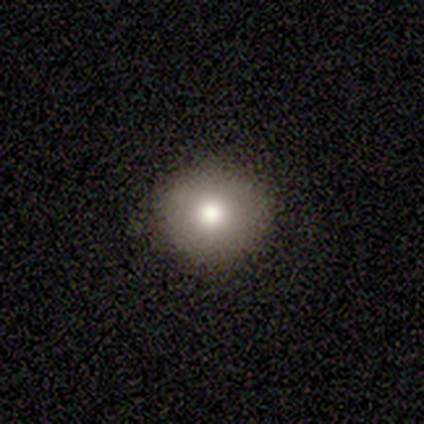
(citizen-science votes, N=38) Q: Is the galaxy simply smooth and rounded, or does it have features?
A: smooth — 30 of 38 (79%).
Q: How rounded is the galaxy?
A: round — 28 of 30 (93%).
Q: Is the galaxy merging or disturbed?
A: none — 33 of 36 (92%).